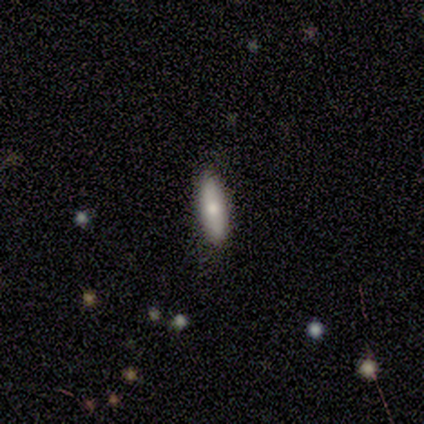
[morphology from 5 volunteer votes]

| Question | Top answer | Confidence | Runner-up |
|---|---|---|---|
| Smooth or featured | smooth | 60% | featured or disk (20%) |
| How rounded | cigar-shaped | 67% | in between (33%) |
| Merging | none | 100% | — |